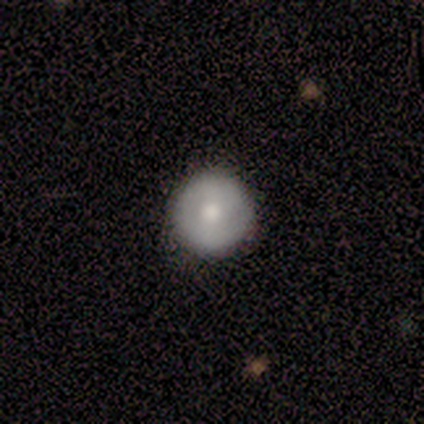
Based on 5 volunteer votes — This is clearly a smooth galaxy (80%). How rounded: clearly round (100%). Merging: clearly none (80%).